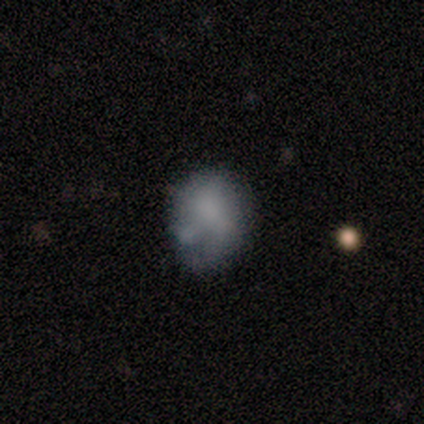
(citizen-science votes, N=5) Smooth or featured? 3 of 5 (60%) said smooth. How rounded? 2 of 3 (67%) said round. Merging? 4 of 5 (80%) said minor disturbance.